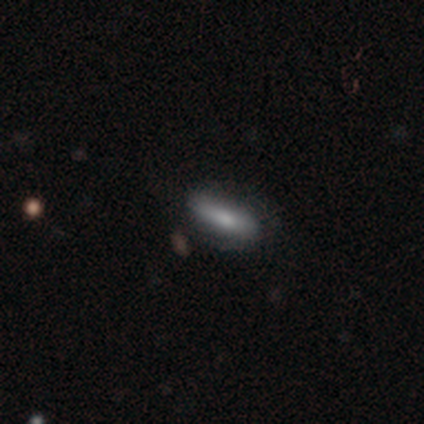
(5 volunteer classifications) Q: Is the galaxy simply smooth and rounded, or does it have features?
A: smooth — 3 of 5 (60%).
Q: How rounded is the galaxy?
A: cigar-shaped — 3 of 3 (100%).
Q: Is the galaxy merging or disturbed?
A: none — 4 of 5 (80%).